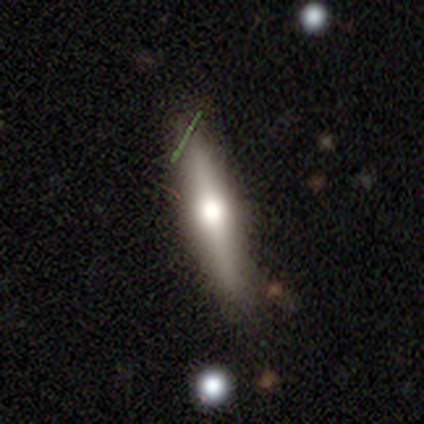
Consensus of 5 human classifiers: This appears to be a featured or disk galaxy (60%) viewed edge-on (100%) with a rounded central bulge (100%). Merging: none (80%).